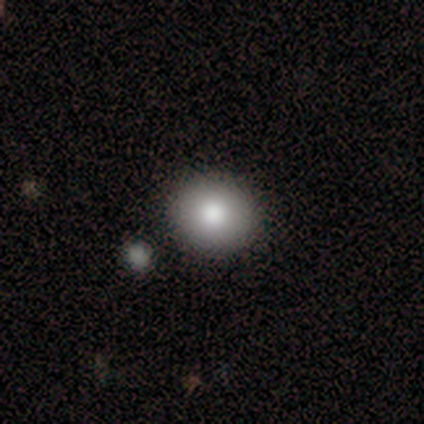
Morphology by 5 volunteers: Smooth or featured? smooth (60%)
How rounded? round (100%)
Merging? none (75%)